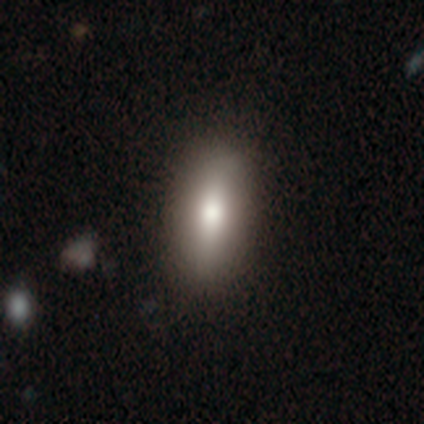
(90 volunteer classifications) smooth_or_featured: smooth (p=0.69) [alt: featured or disk p=0.22]
how_rounded: in between (p=0.61) [alt: cigar-shaped p=0.35]
merging: none (p=0.82) [alt: minor disturbance p=0.12]